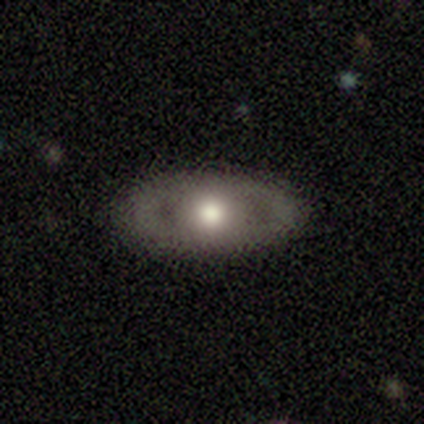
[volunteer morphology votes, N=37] A featured or disk galaxy (59%) with no bar (95%), no spiral arms (95%) and a moderate central bulge (89%). Merging: none (91%).